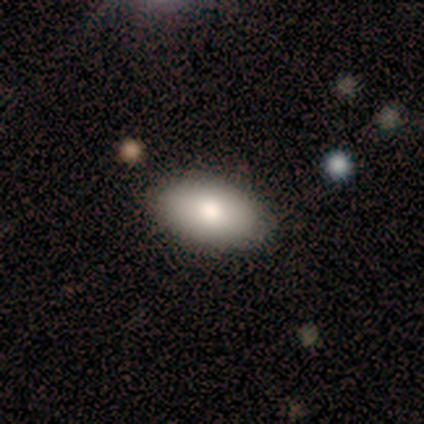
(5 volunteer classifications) smooth_or_featured: smooth (p=0.80) [alt: featured or disk p=0.20]
how_rounded: in between (p=1.00)
merging: none (p=0.80) [alt: minor disturbance p=0.20]